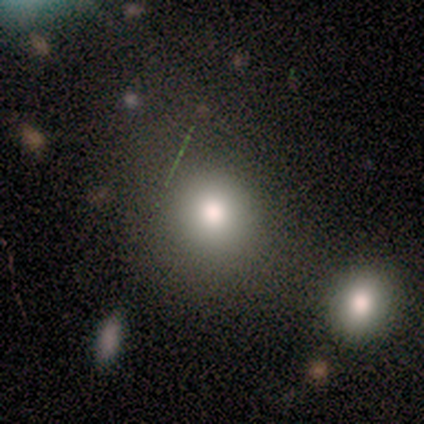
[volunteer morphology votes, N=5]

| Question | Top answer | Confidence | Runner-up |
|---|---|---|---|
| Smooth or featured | smooth | 60% | star or artifact (40%) |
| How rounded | round | 100% | — |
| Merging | none | 33% | tied: minor disturbance (33%), major disturbance (33%) |